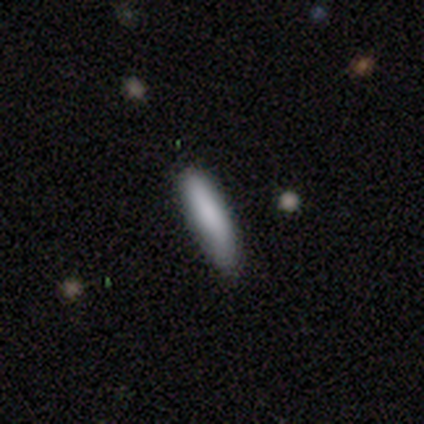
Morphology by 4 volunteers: smooth-or-featured: smooth: 75% | featured or disk: 25% | star or artifact: 0%
  how-rounded: cigar-shaped: 67% | in between: 33% | round: 0%
  merging: none: 100% | minor disturbance: 0% | major disturbance: 0% | merger: 0%